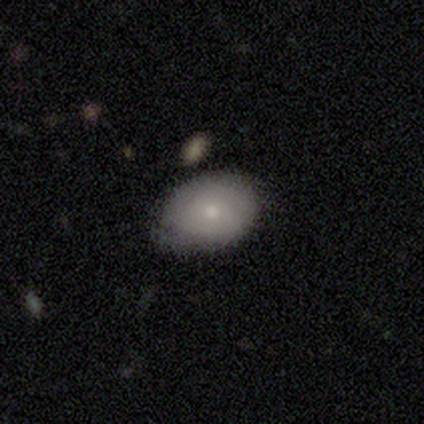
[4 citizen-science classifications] Smooth or featured: smooth — 100%
How rounded: in between — 100%
Merging: none — 50% (tied with minor disturbance — 50%)